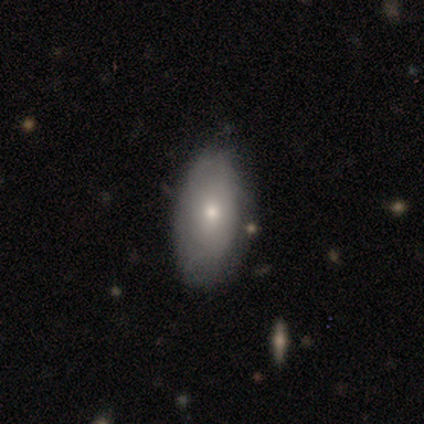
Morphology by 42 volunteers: A smooth galaxy with no disk features (74%) that is in between round and cigar-shaped (90%).

Vote fractions:
- Smooth or featured? smooth: 74% / featured or disk: 19% / star or artifact: 7%
- How rounded? in between: 90% / cigar-shaped: 10% / round: 0%
- Merging? none: 79% / minor disturbance: 18% / merger: 3% / major disturbance: 0%